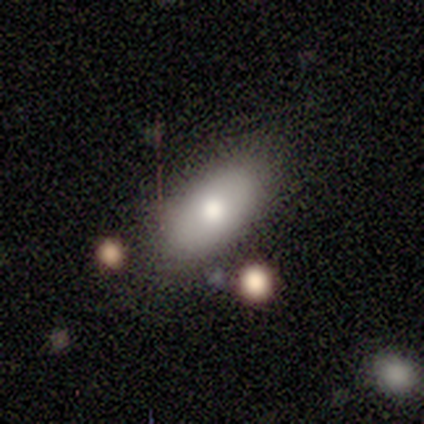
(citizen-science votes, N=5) smooth_or_featured: smooth (p=0.40) [tied with: featured or disk p=0.40]
how_rounded: in between (p=1.00)
merging: none (p=0.75) [alt: minor disturbance p=0.25]